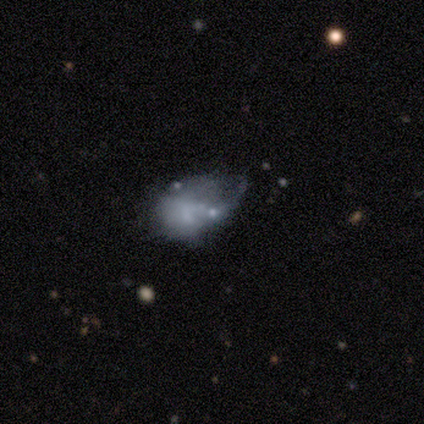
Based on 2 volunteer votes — A smooth galaxy with no disk features (100%) that is in between round and cigar-shaped (100%).

Vote fractions:
- Smooth or featured? smooth: 100% / featured or disk: 0% / star or artifact: 0%
- How rounded? in between: 100% / round: 0% / cigar-shaped: 0%
- Merging? minor disturbance: 100% / none: 0% / major disturbance: 0% / merger: 0%